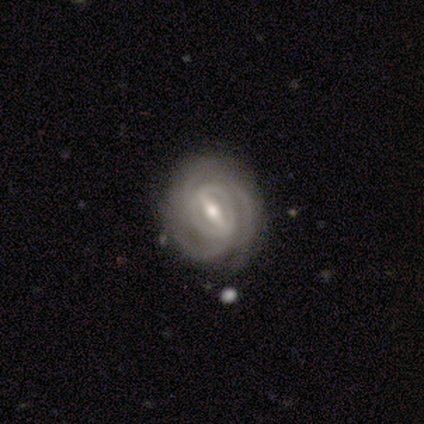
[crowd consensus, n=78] smooth_or_featured: featured or disk (p=0.96) [alt: smooth p=0.03]
disk_edge_on: no (p=0.96) [alt: yes p=0.04]
bar: strong (p=0.75) [alt: weak p=0.21]
has_spiral_arms: yes (p=0.93) [alt: no p=0.07]
spiral_winding: tight (p=0.73) [alt: medium p=0.22]
spiral_arm_count: 3 (p=0.37) [tied with: can't tell p=0.37]
bulge_size: moderate (p=0.60) [alt: small p=0.36]
merging: none (p=0.52) [alt: minor disturbance p=0.09]